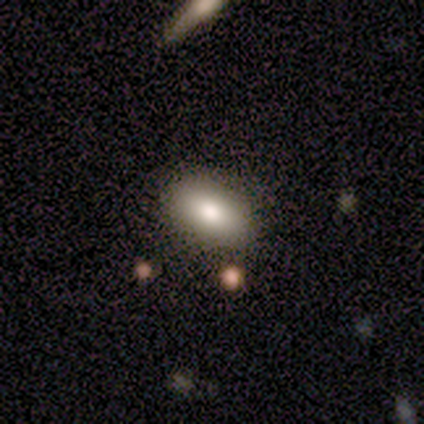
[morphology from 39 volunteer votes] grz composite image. It shows a smooth galaxy with no disk features (87%) that is in between round and cigar-shaped (94%). Merging: none (94%).